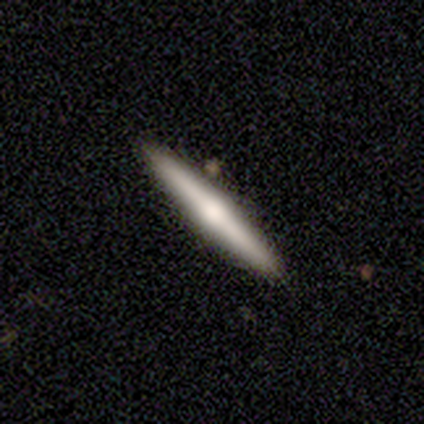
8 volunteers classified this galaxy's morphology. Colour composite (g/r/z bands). It shows a featured or disk galaxy (62%) viewed edge-on (100%) with a rounded central bulge (100%). Merging: none (75%).